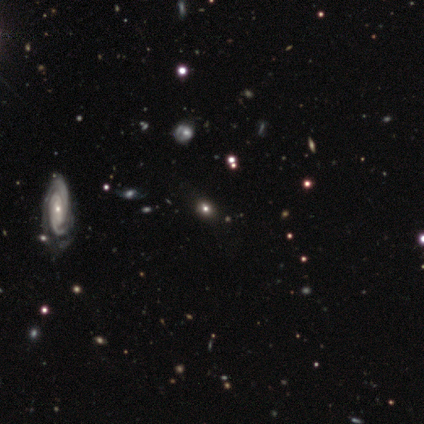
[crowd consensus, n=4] Smooth or featured? featured or disk (75%)
Edge-on disk? no (67%)
Bar? no (100%)
Spiral arms? yes (100%)
Spiral winding? tight (50%, tied with medium)
Spiral arm count? 3 (50%, tied with can't tell)
Bulge size? small (100%)
Merging? none (67%)